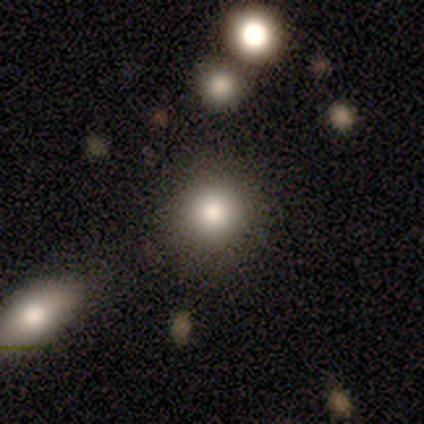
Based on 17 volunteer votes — smooth_or_featured: smooth (p=0.82) [alt: star or artifact p=0.12]
how_rounded: round (p=0.93) [alt: in between p=0.07]
merging: none (p=0.87) [alt: major disturbance p=0.07]